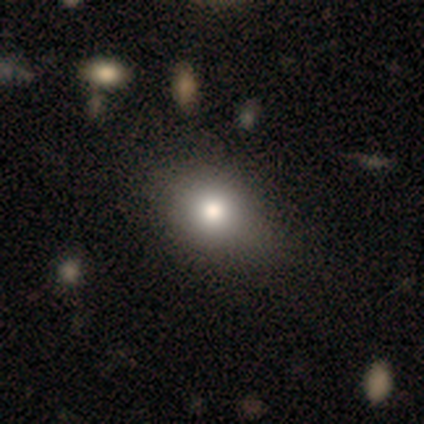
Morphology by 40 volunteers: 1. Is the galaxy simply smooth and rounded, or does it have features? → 85% smooth, 8% featured or disk, 8% star or artifact.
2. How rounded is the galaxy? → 56% in between, 44% round, 0% cigar-shaped.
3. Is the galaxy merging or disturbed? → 54% none, 8% minor disturbance, 3% major disturbance, 3% merger.